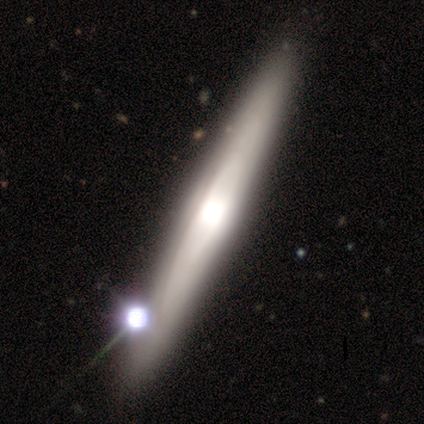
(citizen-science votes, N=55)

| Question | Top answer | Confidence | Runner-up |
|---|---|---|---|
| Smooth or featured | featured or disk | 71% | smooth (22%) |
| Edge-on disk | yes | 85% | no (15%) |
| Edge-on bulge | rounded | 64% | none (21%) |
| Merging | none | 86% | minor disturbance (8%) |